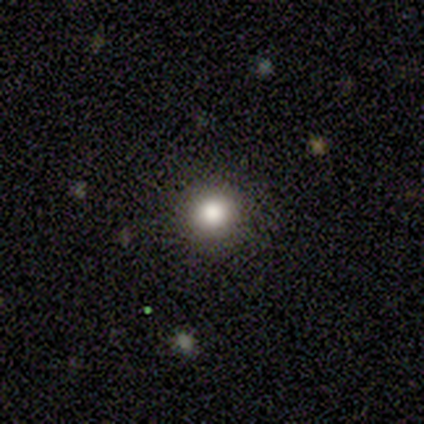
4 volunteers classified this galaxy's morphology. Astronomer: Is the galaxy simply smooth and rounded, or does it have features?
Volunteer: smooth — 75%.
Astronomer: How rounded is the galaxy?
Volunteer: round — 100%.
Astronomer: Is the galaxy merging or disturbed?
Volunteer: none — 100%.